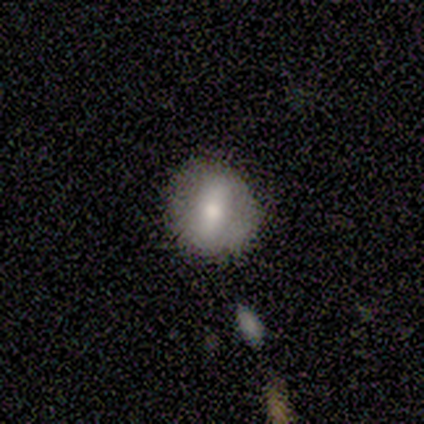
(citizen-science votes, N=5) A featured or disk galaxy (60%) with a weak bar (67%), no spiral arms (100%) and a moderate central bulge (67%).

Vote fractions:
- Smooth or featured? featured or disk: 60% / smooth: 40% / star or artifact: 0%
- Edge-on disk? no: 100% / yes: 0%
- Bar? weak: 67% / no: 33% / strong: 0%
- Spiral arms? no: 100% / yes: 0%
- Bulge size? moderate: 67% / small: 33% / dominant: 0% / large: 0% / none: 0%
- Merging? none: 60% / minor disturbance: 40% / major disturbance: 0% / merger: 0%